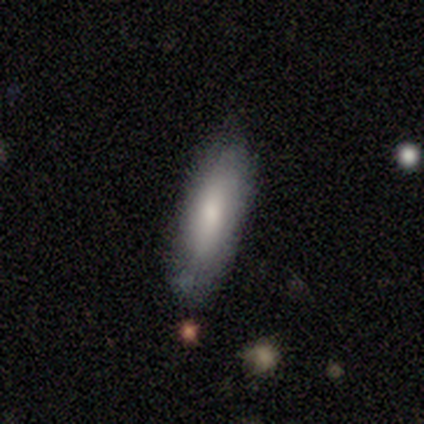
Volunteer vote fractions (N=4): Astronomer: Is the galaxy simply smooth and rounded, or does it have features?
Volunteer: smooth — 100%.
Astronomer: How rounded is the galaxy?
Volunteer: in between — 100%.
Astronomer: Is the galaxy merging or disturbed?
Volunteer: none — 75%.